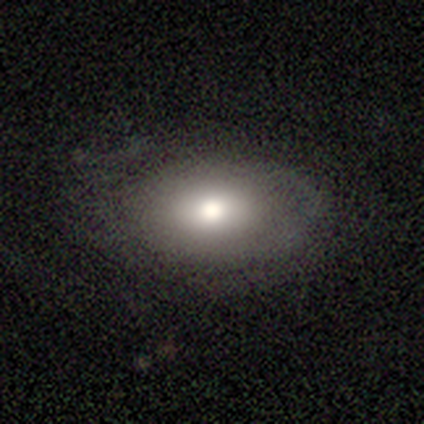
Q: Smooth or featured?
A: smooth (80%); runner-up: featured or disk (20%)
Q: How rounded?
A: in between (75%); runner-up: round (25%)
Q: Merging?
A: none (60%); runner-up: minor disturbance (20%)